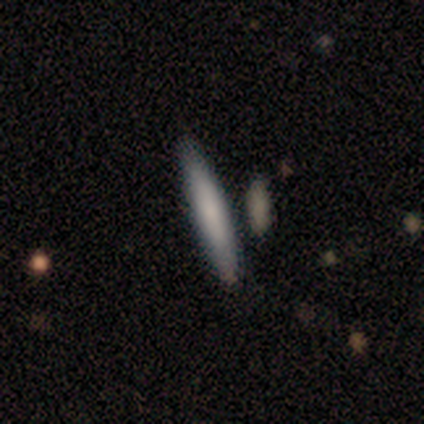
Smooth or featured? smooth (60%)
How rounded? cigar-shaped (100%)
Merging? none (75%)